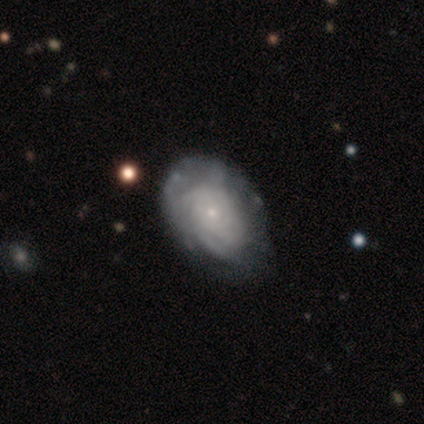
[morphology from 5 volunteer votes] smooth_or_featured: featured or disk (p=0.60) [alt: smooth p=0.40]
disk_edge_on: no (p=1.00)
bar: no (p=1.00)
has_spiral_arms: yes (p=1.00)
spiral_winding: tight (p=0.67) [alt: medium p=0.33]
spiral_arm_count: can't tell (p=0.67) [alt: 3 p=0.33]
bulge_size: small (p=0.67) [alt: moderate p=0.33]
merging: none (p=0.60) [alt: minor disturbance p=0.40]